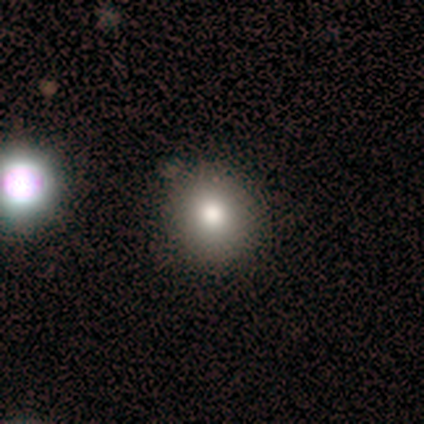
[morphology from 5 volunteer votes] Q: Smooth or featured?
A: smooth (80%); runner-up: star or artifact (20%)
Q: How rounded?
A: round (100%)
Q: Merging?
A: none (75%); runner-up: minor disturbance (25%)